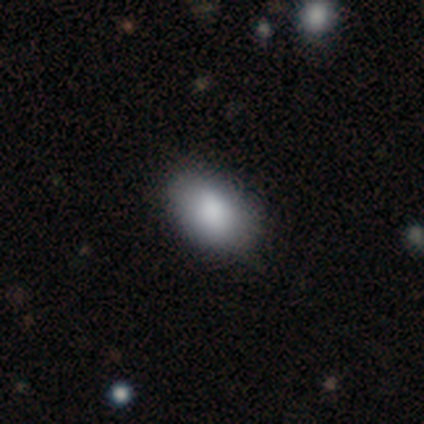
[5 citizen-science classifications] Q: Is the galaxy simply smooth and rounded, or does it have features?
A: smooth — 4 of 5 (80%).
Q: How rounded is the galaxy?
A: in between — 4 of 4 (100%).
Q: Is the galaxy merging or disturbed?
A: none — 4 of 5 (80%).